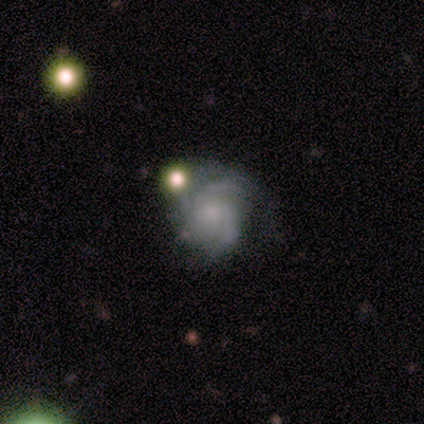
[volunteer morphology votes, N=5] smooth-or-featured: featured or disk: 80% | smooth: 20% | star or artifact: 0%
  disk-edge-on: no: 100% | yes: 0%
    bar: no: 100% | strong: 0% | weak: 0%
    has-spiral-arms: yes: 100% | no: 0%
      spiral-winding: medium: 50% | tight: 25% | loose: 25%
      spiral-arm-count: 3: 50% (tied) | can't tell: 50% (tied) | 1: 0% | 2: 0% | 4: 0% | more than 4: 0%
    bulge-size: none: 50% | moderate: 25% | small: 25% | dominant: 0% | large: 0%
  merging: minor disturbance: 40% | none: 20% | major disturbance: 20% | merger: 20%